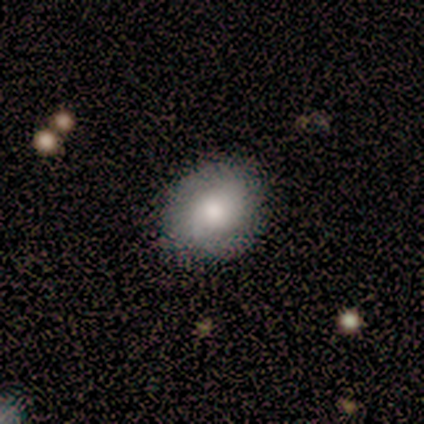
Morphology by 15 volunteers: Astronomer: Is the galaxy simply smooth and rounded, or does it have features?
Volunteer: smooth — 60% (runner-up: featured or disk, 40%).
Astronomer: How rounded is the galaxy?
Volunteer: in between — 78%.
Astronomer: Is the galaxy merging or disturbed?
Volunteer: none — 80%.